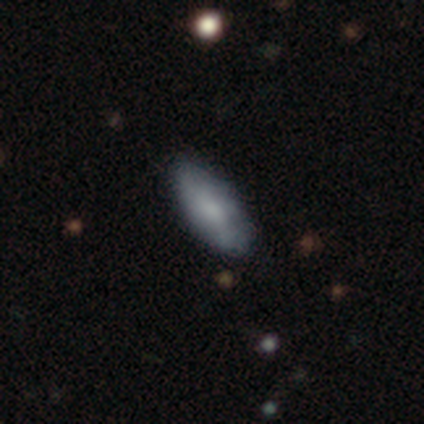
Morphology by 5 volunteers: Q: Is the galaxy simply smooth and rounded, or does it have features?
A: smooth — 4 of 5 (80%).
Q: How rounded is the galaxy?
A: in between — 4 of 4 (100%).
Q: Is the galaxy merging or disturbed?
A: none — 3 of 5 (60%).